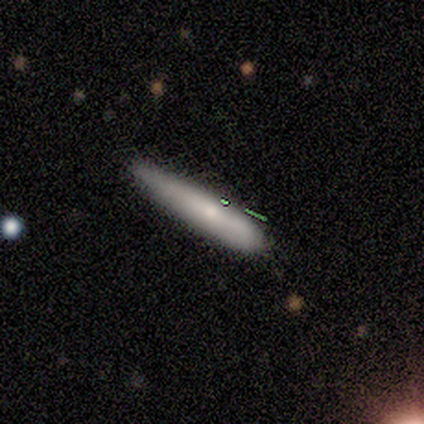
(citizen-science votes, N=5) Q: Smooth or featured?
A: smooth (60%); runner-up: featured or disk (40%)
Q: How rounded?
A: cigar-shaped (67%); runner-up: in between (33%)
Q: Merging?
A: none (80%); runner-up: minor disturbance (20%)